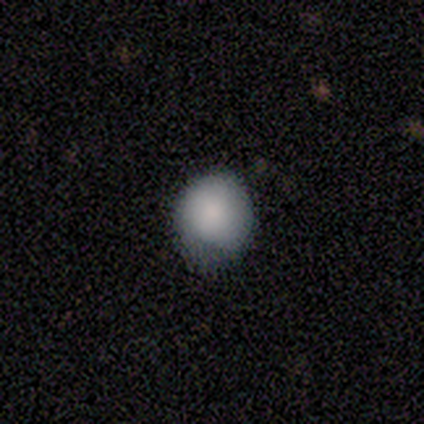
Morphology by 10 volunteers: smooth 80%, featured or disk 10%, star or artifact 10%. Down the decision tree: how rounded — round (100%); merging — none (56%).